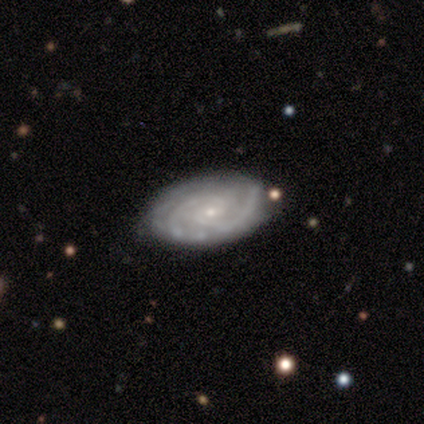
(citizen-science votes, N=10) Smooth or featured? 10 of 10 (100%) said featured or disk. Edge-on disk? 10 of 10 (100%) said no. Bar? 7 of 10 (70%) said no. Spiral arms? 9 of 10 (90%) said yes. Spiral winding? 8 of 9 (89%) said tight. Spiral arm count? 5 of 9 (56%) said 2. Bulge size? 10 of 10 (100%) said small. Merging? 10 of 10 (100%) said none.